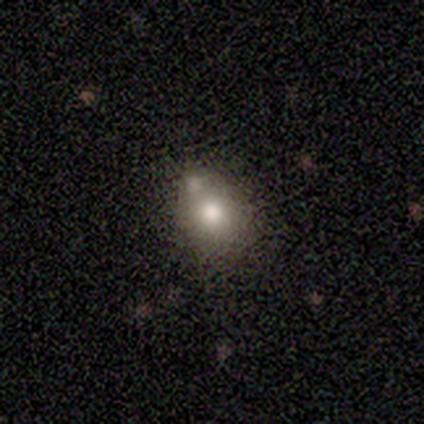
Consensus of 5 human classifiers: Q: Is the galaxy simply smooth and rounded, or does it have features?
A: smooth — 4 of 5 (80%).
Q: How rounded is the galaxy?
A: round — 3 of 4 (75%).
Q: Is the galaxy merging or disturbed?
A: none — 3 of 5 (60%).